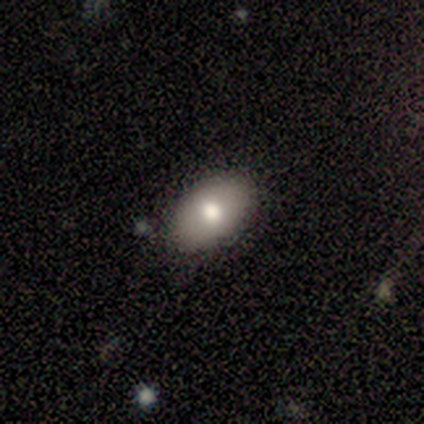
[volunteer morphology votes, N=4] type=smooth (100%); roundness=in between (100%); merging=none (50%, tied with minor disturbance).